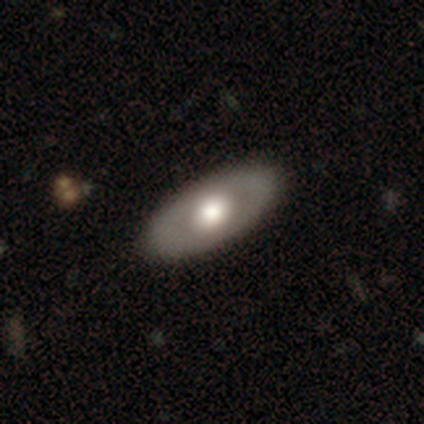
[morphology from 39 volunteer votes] smooth_or_featured: smooth (p=0.51) [alt: featured or disk p=0.44]
how_rounded: in between (p=1.00)
merging: none (p=0.65) [alt: major disturbance p=0.03]